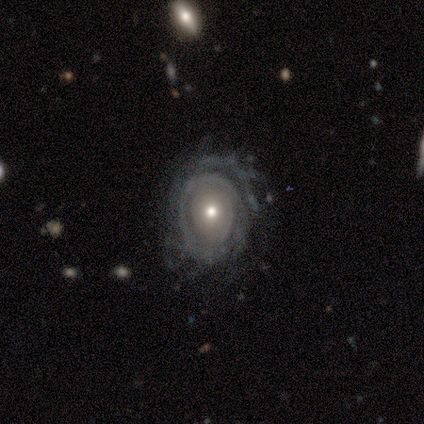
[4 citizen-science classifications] This is clearly a featured or disk galaxy (100%). It is clearly not viewed edge-on (100%). Bar: likely no (75%). Spiral arm pattern: clearly no (100%). Central bulge: likely moderate (75%). Merging: possibly none (50%, tied with minor disturbance).